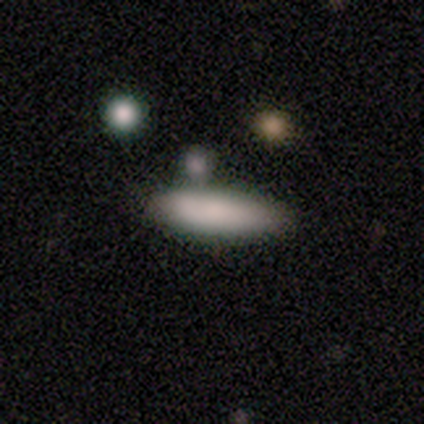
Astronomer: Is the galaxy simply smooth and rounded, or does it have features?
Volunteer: smooth — 80%.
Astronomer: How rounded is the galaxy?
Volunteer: cigar-shaped — 75%.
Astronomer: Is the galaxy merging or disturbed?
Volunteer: none — 75%.